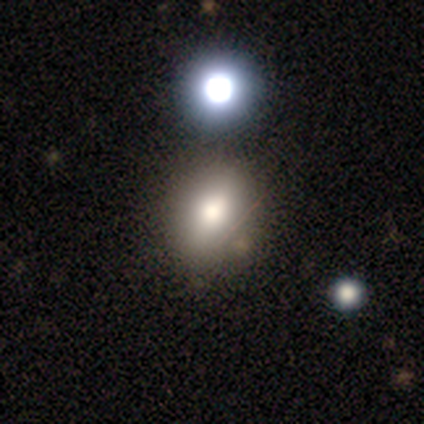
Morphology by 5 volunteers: Q: Smooth or featured?
A: smooth (80%); runner-up: star or artifact (20%)
Q: How rounded?
A: in between (75%); runner-up: round (25%)
Q: Merging?
A: none (50%); runner-up: minor disturbance (25%)